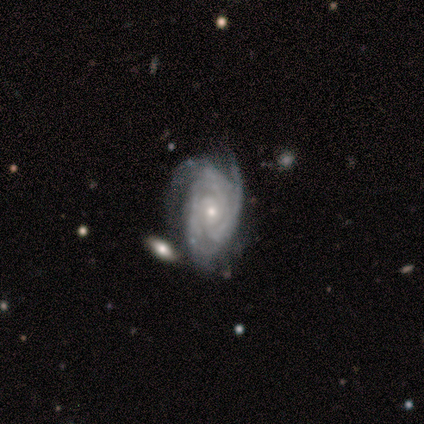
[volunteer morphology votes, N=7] This appears to be a featured or disk galaxy (100%) with no bar (100%), 3 (43%) tight (57%) spiral arms (100%) and a small central bulge (86%). Merging: none (57%).